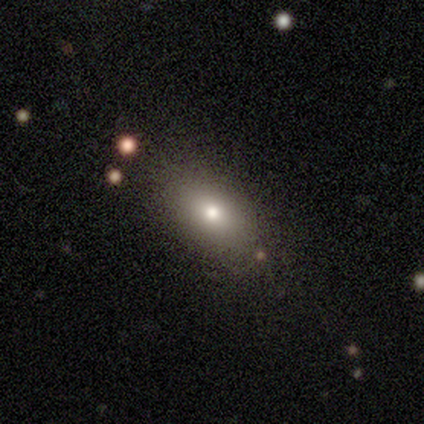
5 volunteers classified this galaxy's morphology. smooth-or-featured: smooth: 80% | featured or disk: 20% | star or artifact: 0%
  how-rounded: in between: 100% | round: 0% | cigar-shaped: 0%
  merging: none: 100% | minor disturbance: 0% | major disturbance: 0% | merger: 0%